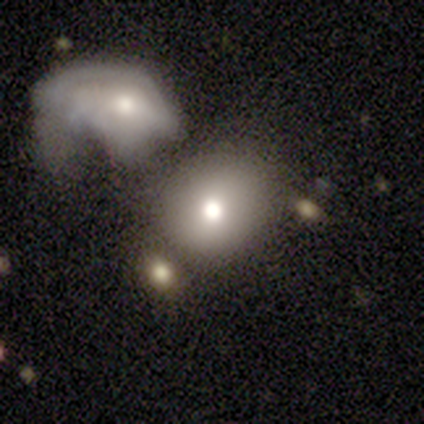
Overall: smooth (60%; featured or disk 20%). How rounded: round (67%; in between 33%). Merging: major disturbance (50%, tied with merger).